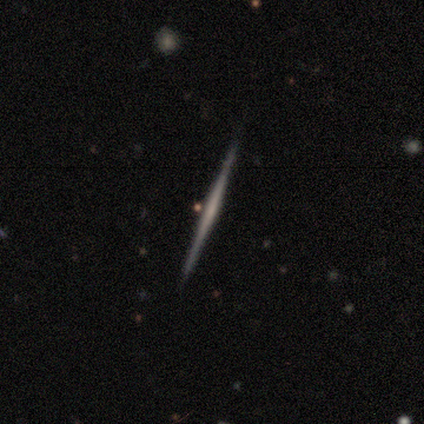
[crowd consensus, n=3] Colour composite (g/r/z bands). It shows a smooth galaxy with no disk features (67%) that is cigar-shaped (100%). Merging: none (100%).